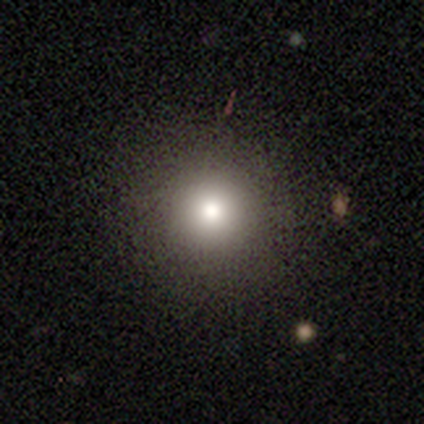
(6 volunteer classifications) A smooth galaxy with no disk features (83%) that is round (100%). Merging: none (100%).